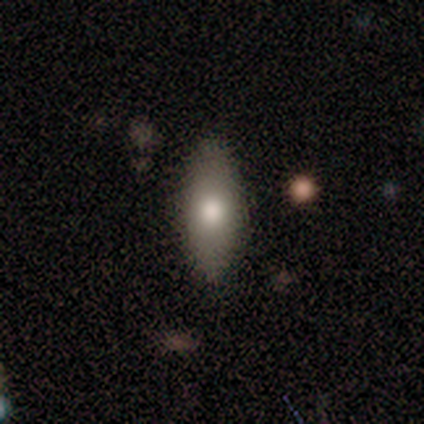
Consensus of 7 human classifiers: Overall: smooth (71%). How rounded: in between (100%). Merging: none (100%).